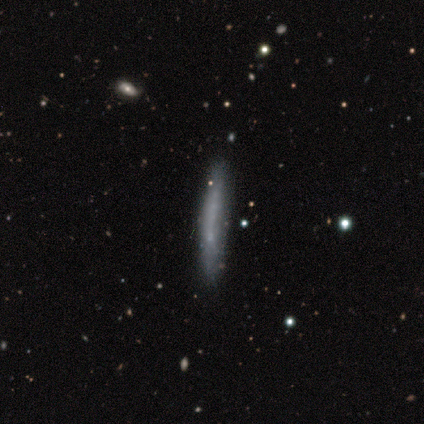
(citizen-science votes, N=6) smooth_or_featured: smooth (p=1.00)
how_rounded: cigar-shaped (p=1.00)
merging: none (p=1.00)